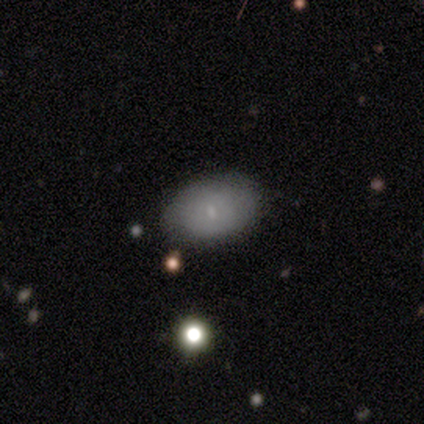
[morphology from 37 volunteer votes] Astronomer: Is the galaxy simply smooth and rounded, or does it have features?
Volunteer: smooth — 62%.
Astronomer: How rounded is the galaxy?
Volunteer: in between — 91%.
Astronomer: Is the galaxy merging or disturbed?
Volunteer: none — 77%.